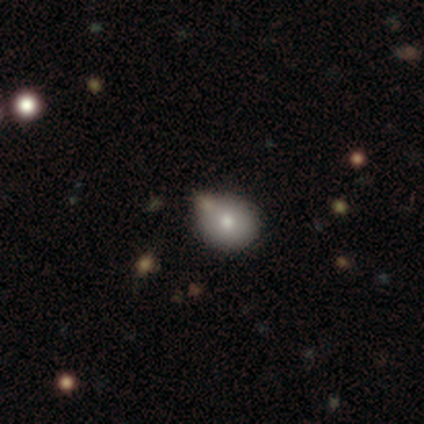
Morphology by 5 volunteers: Smooth or featured? smooth (80%)
How rounded? round (75%)
Merging? none (50%, tied with minor disturbance)